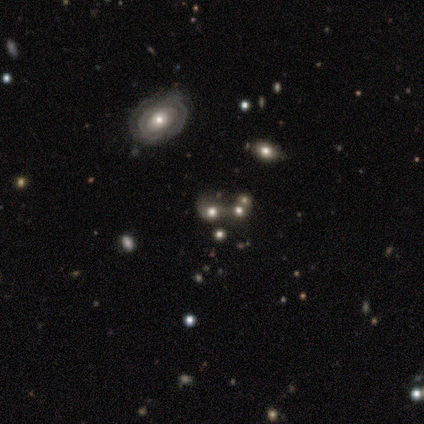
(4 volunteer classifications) A smooth galaxy with no disk features (50%) that is round (100%). Merging: merger (67%).